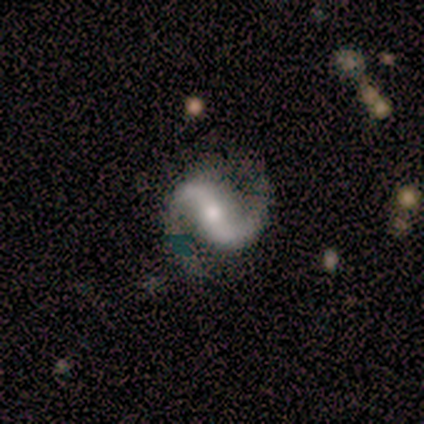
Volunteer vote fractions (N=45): Smooth or featured? featured or disk (87%)
Edge-on disk? no (100%)
Bar? strong (46%)
Spiral arms? yes (97%)
Spiral winding? medium (71%)
Spiral arm count? 2 (97%)
Bulge size? small (44%)
Merging? none (71%)